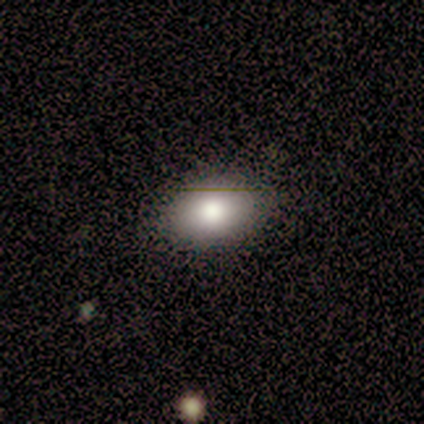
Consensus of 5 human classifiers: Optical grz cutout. It shows a smooth galaxy with no disk features (100%) that is in between round and cigar-shaped (100%). Merging: none (100%).